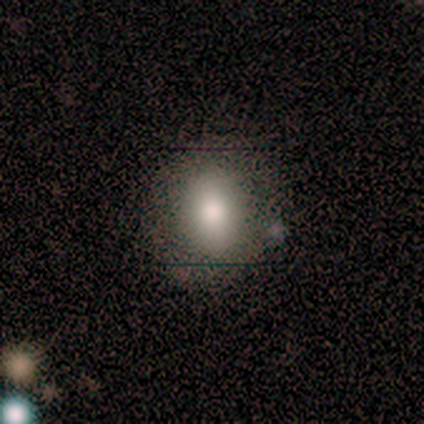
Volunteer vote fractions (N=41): This appears to be a smooth galaxy with no disk features (73%) that is round (53%). Merging: none (82%).